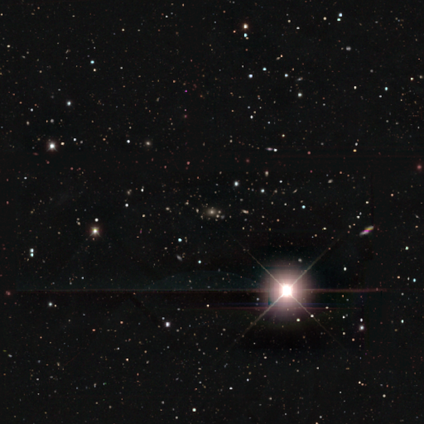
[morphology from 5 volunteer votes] A star or artifact, not a galaxy (80%).

Vote fractions:
- Smooth or featured? star or artifact: 80% / smooth: 20% / featured or disk: 0%